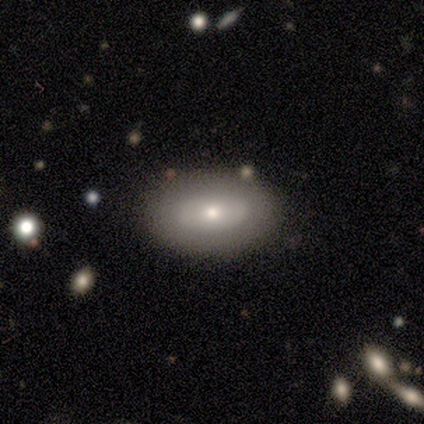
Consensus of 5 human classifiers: smooth-or-featured: smooth: 80% | featured or disk: 20% | star or artifact: 0%
  how-rounded: in between: 75% | round: 25% | cigar-shaped: 0%
  merging: none: 100% | minor disturbance: 0% | major disturbance: 0% | merger: 0%